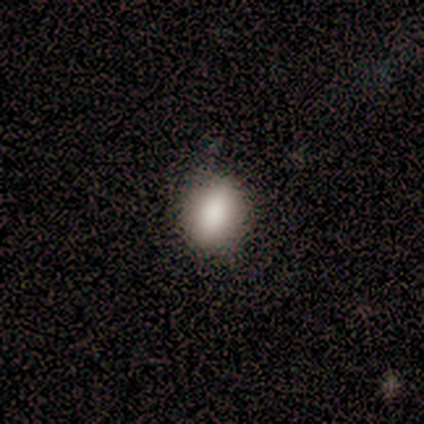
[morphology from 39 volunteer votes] Volunteers were most divided on "how rounded": in between: 54%, round: 46%, cigar-shaped: 0%. More confident: smooth or featured — smooth (90%); merging — none (68%).